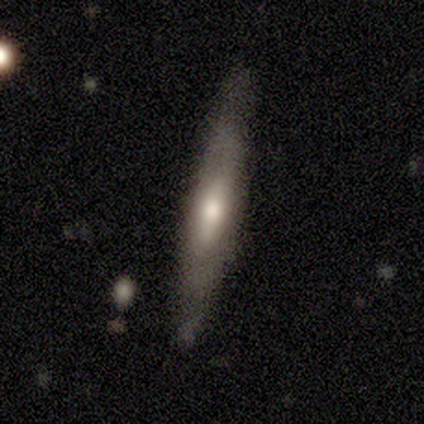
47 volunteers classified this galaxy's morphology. Smooth or featured? featured or disk (62%)
Edge-on disk? yes (62%)
Edge-on bulge? rounded (78%)
Merging? none (85%)